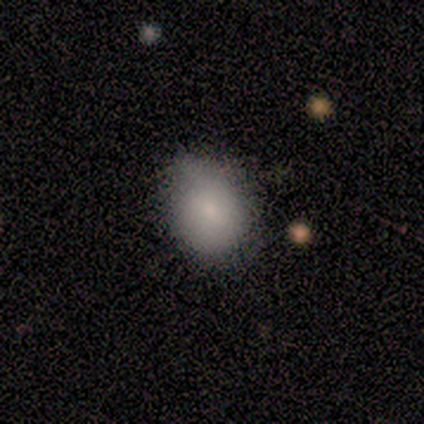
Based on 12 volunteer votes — Volunteers were most divided on "how rounded": in between: 55%, round: 45%, cigar-shaped: 0%. More confident: smooth or featured — smooth (92%); merging — none (67%).